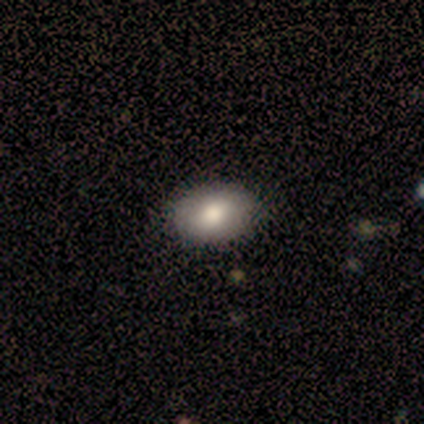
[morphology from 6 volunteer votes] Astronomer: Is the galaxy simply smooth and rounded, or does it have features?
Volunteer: smooth — 83%.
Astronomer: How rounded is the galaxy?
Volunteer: in between — 100%.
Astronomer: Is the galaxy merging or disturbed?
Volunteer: none — 100%.